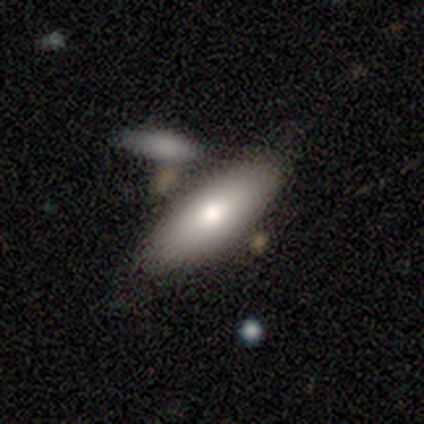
This is likely a smooth galaxy (71%). How rounded: likely cigar-shaped (60%). Merging: possibly none (57%).